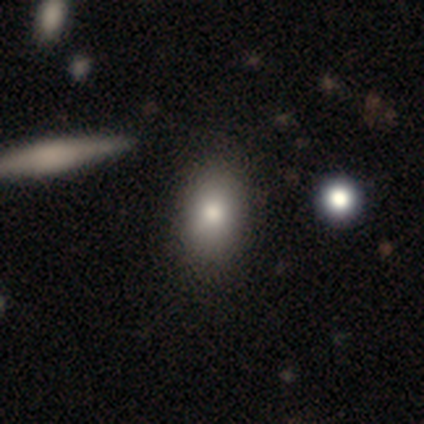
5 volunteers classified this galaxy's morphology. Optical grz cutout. It shows a smooth galaxy with no disk features (80%) that is in between round and cigar-shaped (100%). Merging: none (100%).